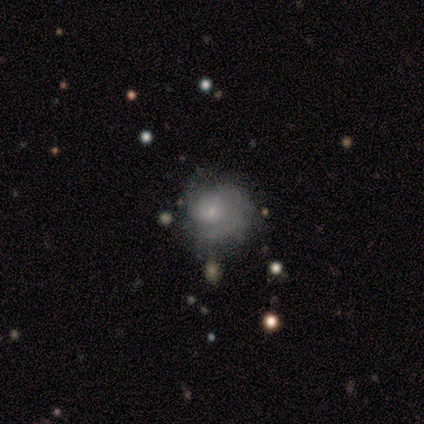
Overall: star or artifact (50%; smooth 25%).